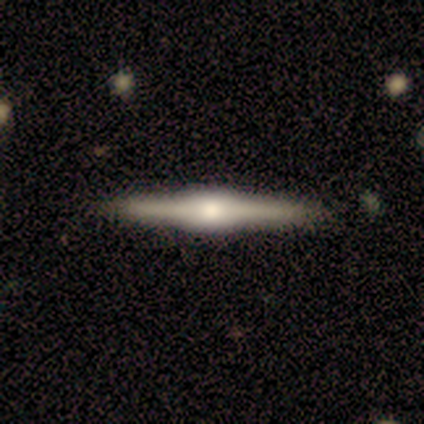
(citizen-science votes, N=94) smooth-or-featured: featured or disk: 83% | smooth: 11% | star or artifact: 6%
  disk-edge-on: yes: 97% | no: 3%
    edge-on-bulge: rounded: 61% | boxy: 39% | none: 0%
  merging: none: 91% | minor disturbance: 7% | major disturbance: 1% | merger: 1%